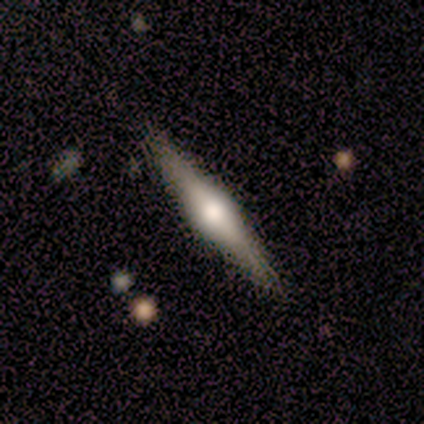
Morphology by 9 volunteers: A featured or disk galaxy (89%) viewed edge-on (100%) with a rounded central bulge (100%). Merging: none (100%).